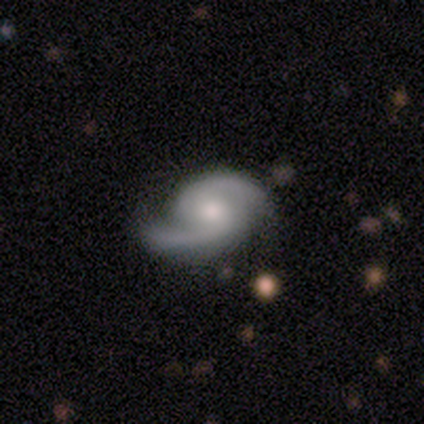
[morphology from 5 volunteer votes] This appears to be a featured or disk galaxy (100%) with no bar (60%), 2 (100%) loose (60%) spiral arms (100%) and a moderate central bulge (40%, tied with small). Merging: none (60%).